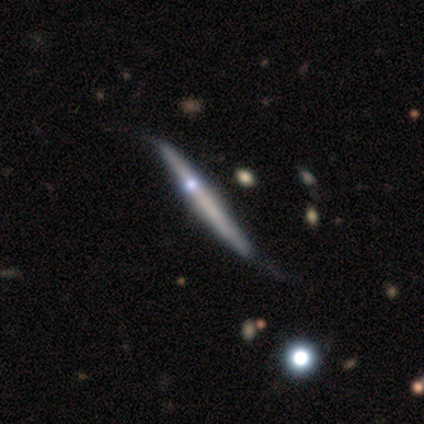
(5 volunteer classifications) Morphology: type=featured or disk (60%); edge-on=yes (100%); edge-on bulge=none (67%); merging=none (60%).